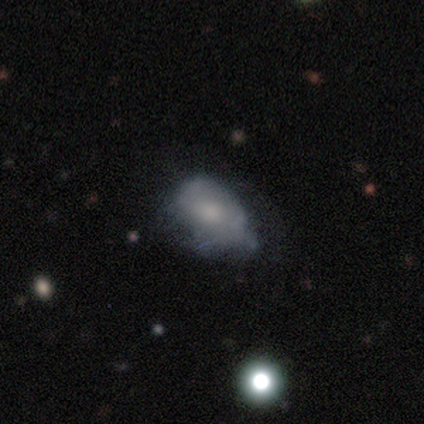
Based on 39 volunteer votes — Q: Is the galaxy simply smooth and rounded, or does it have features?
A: smooth — 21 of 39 (54%).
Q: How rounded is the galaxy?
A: in between — 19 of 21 (90%).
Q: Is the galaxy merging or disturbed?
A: none — 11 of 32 (34%, tied with minor disturbance).